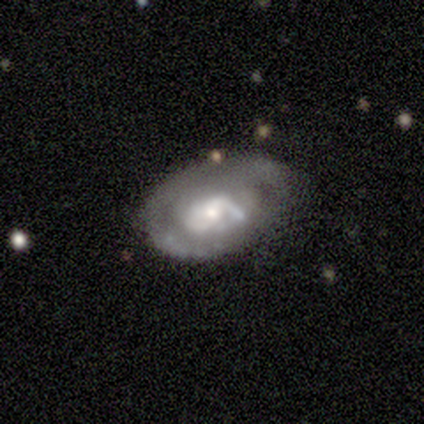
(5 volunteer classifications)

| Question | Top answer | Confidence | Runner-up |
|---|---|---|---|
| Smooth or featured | featured or disk | 80% | smooth (20%) |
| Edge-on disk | no | 100% | — |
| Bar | no | 75% | weak (25%) |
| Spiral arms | yes | 75% | no (25%) |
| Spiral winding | tight | 33% | tied: medium (33%), loose (33%) |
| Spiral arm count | can't tell | 100% | — |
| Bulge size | moderate | 75% | small (25%) |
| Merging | minor disturbance | 60% | none (40%) |